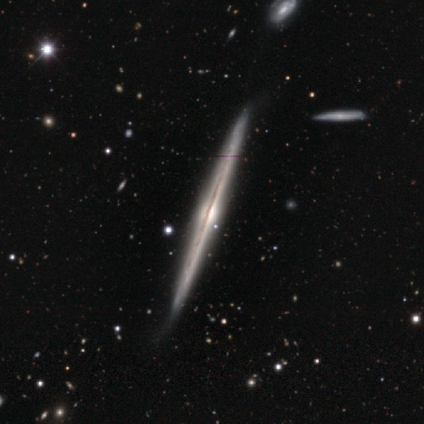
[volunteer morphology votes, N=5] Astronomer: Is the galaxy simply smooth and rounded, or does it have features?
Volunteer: featured or disk — 100%.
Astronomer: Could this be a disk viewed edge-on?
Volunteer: yes — 100%.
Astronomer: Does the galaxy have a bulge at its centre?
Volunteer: rounded — 60%.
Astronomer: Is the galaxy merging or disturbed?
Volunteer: none — 60% (runner-up: minor disturbance, 40%).